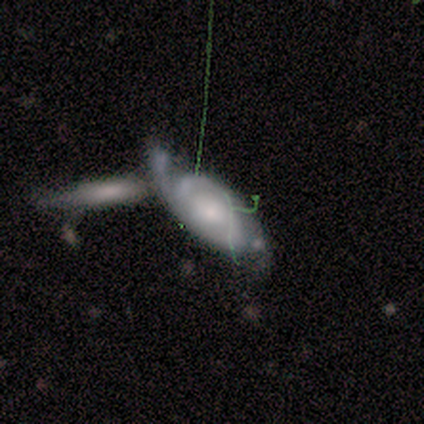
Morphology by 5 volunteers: A smooth galaxy with no disk features (60%) that is cigar-shaped (67%).

Vote fractions:
- Smooth or featured? smooth: 60% / featured or disk: 40% / star or artifact: 0%
- How rounded? cigar-shaped: 67% / in between: 33% / round: 0%
- Merging? merger: 80% / minor disturbance: 20% / none: 0% / major disturbance: 0%